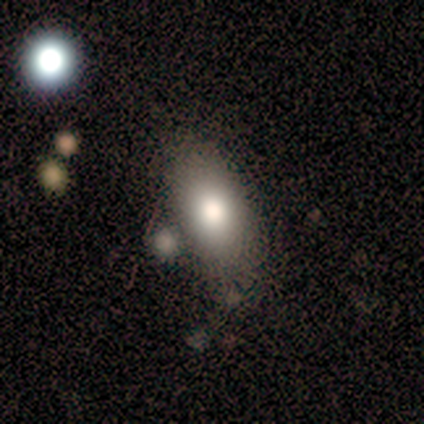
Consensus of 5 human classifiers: Morphology: type=smooth (100%); roundness=in between (100%); merging=minor disturbance (60%).